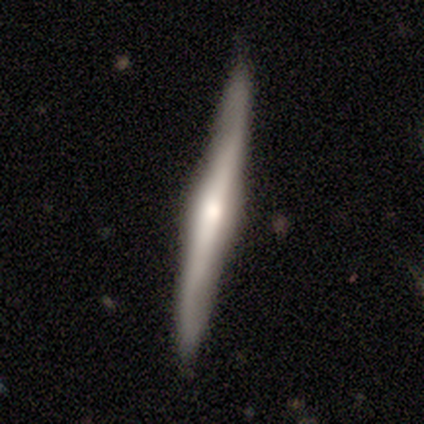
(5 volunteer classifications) A featured or disk galaxy (80%) viewed edge-on (100%) with a rounded central bulge (100%).

Vote fractions:
- Smooth or featured? featured or disk: 80% / smooth: 20% / star or artifact: 0%
- Edge-on disk? yes: 100% / no: 0%
- Edge-on bulge? rounded: 100% / boxy: 0% / none: 0%
- Merging? none: 80% / minor disturbance: 20% / major disturbance: 0% / merger: 0%